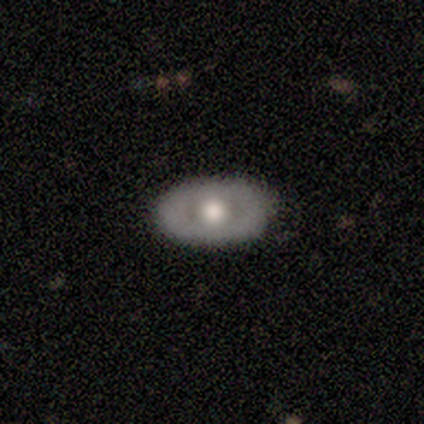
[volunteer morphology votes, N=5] Smooth or featured?
  - featured or disk: 60% *
  - smooth: 40%
  - star or artifact: 0%
Edge-on disk?
  - no: 100% *
  - yes: 0%
Bar?
  - no: 67% *
  - weak: 33%
  - strong: 0%
Spiral arms?
  - no: 67% *
  - yes: 33%
Bulge size?
  - dominant: 33% * (tied)
  - large: 33% * (tied)
  - moderate: 33% * (tied)
  - small: 0%
  - none: 0%
Merging?
  - none: 100% *
  - minor disturbance: 0%
  - major disturbance: 0%
  - merger: 0%